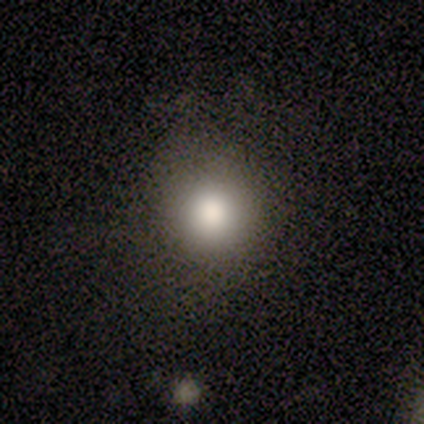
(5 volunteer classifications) smooth-or-featured: smooth: 100% | featured or disk: 0% | star or artifact: 0%
  how-rounded: round: 100% | in between: 0% | cigar-shaped: 0%
  merging: none: 100% | minor disturbance: 0% | major disturbance: 0% | merger: 0%